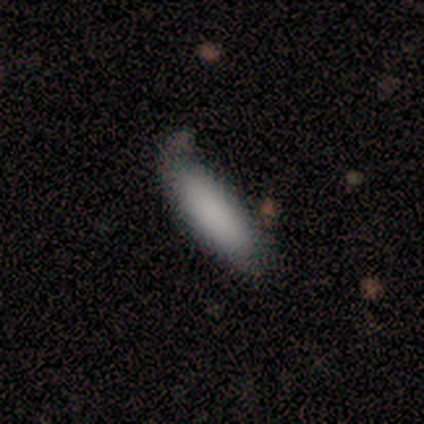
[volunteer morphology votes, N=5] This appears to be a smooth galaxy with no disk features (100%) that is cigar-shaped (80%). Merging: none (100%).